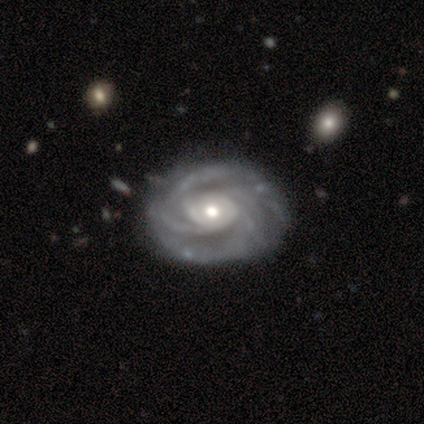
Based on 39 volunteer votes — A featured or disk galaxy (95%) with no bar (89%), 4 (49%) tight (59%) spiral arms (100%) and a moderate central bulge (65%).

Vote fractions:
- Smooth or featured? featured or disk: 95% / star or artifact: 5% / smooth: 0%
- Edge-on disk? no: 100% / yes: 0%
- Bar? no: 89% / weak: 8% / strong: 3%
- Spiral arms? yes: 100% / no: 0%
- Spiral winding? tight: 59% / medium: 41% / loose: 0%
- Spiral arm count? 4: 49% / can't tell: 22% / 3: 11% / more than 4: 11% / 2: 8% / 1: 0%
- Bulge size? moderate: 65% / small: 22% / large: 11% / dominant: 3% / none: 0%
- Merging? none: 62% / minor disturbance: 11% / major disturbance: 3% / merger: 0%